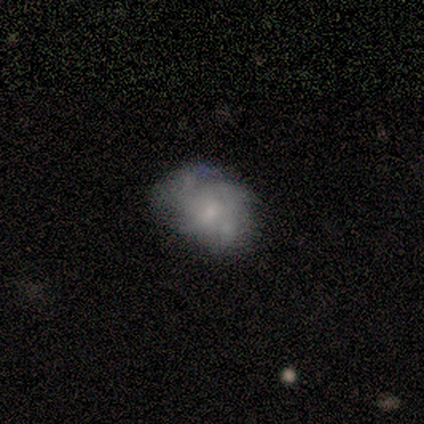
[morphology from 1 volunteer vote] Smooth or featured?
  - featured or disk: 100% *
  - smooth: 0%
  - star or artifact: 0%
Edge-on disk?
  - no: 100% *
  - yes: 0%
Bar?
  - weak: 100% *
  - strong: 0%
  - no: 0%
Spiral arms?
  - yes: 100% *
  - no: 0%
Spiral winding?
  - loose: 100% *
  - tight: 0%
  - medium: 0%
Spiral arm count?
  - 3: 100% *
  - 1: 0%
  - 2: 0%
  - 4: 0%
  - more than 4: 0%
  - can't tell: 0%
Bulge size?
  - moderate: 100% *
  - dominant: 0%
  - large: 0%
  - small: 0%
  - none: 0%
Merging?
  - none: 100% *
  - minor disturbance: 0%
  - major disturbance: 0%
  - merger: 0%